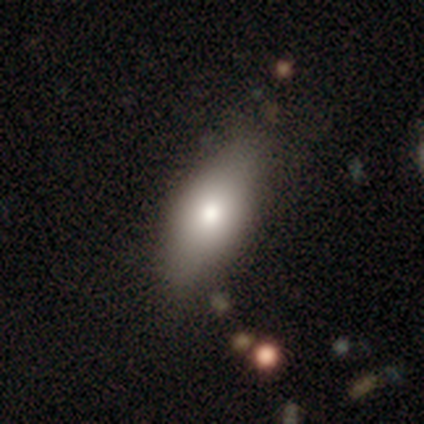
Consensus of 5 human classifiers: Volunteers were most divided on "merging": none: 75%, minor disturbance: 25%, major disturbance: 0%, merger: 0%. More confident: how rounded — in between (100%); smooth or featured — smooth (80%).